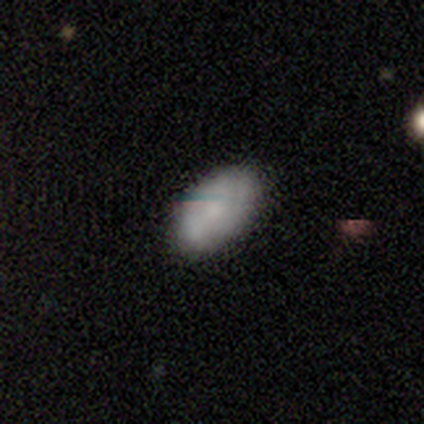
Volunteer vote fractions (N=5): Smooth or featured? 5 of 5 (100%) said smooth. How rounded? 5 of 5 (100%) said in between. Merging? 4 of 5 (80%) said none.